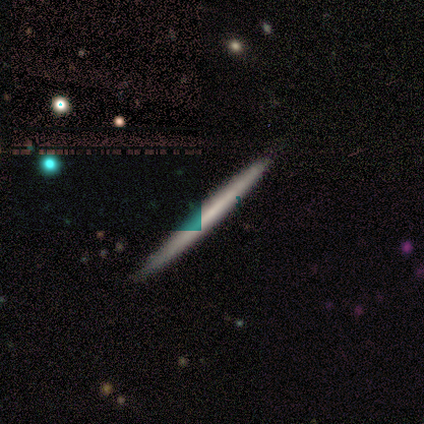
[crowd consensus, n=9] Overall: smooth (56%; featured or disk 33%). How rounded: cigar-shaped (100%). Merging: none (88%).